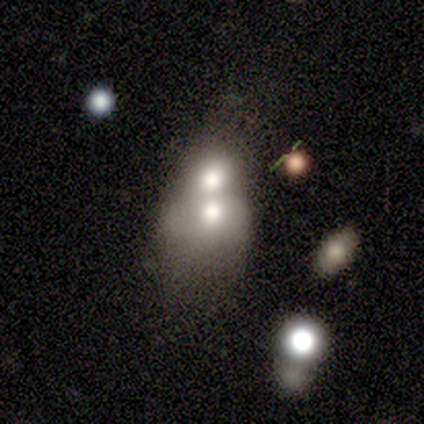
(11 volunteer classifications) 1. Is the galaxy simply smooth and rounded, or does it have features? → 64% smooth, 27% featured or disk, 9% star or artifact.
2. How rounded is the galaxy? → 57% round, 43% in between, 0% cigar-shaped.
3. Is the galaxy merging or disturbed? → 90% merger, 10% minor disturbance, 0% none, 0% major disturbance.